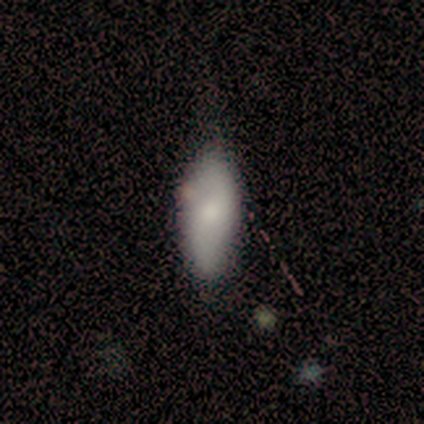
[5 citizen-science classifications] Q: Smooth or featured?
A: smooth (80%); runner-up: featured or disk (20%)
Q: How rounded?
A: in between (75%); runner-up: cigar-shaped (25%)
Q: Merging?
A: none (60%); runner-up: minor disturbance (40%)